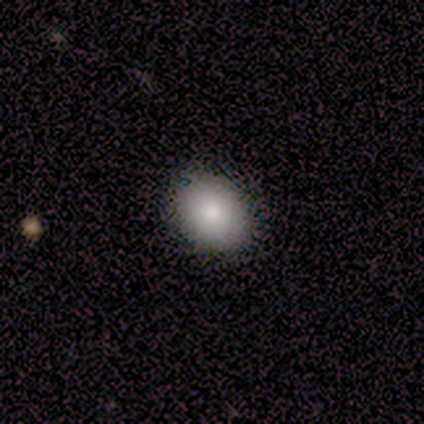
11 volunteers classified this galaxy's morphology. smooth 82%, featured or disk 18%, star or artifact 0%. Down the decision tree: how rounded — in between (67%); merging — none (100%).